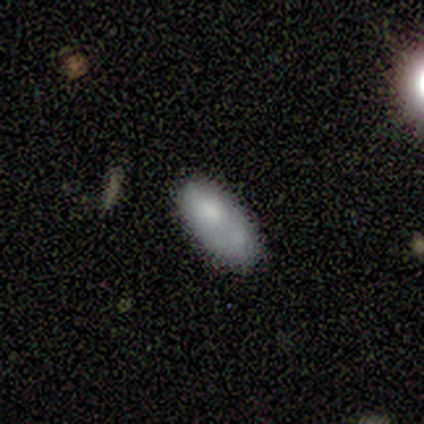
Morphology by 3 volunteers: This appears to be a smooth galaxy with no disk features (100%) that is in between round and cigar-shaped (100%). Merging: none (67%).